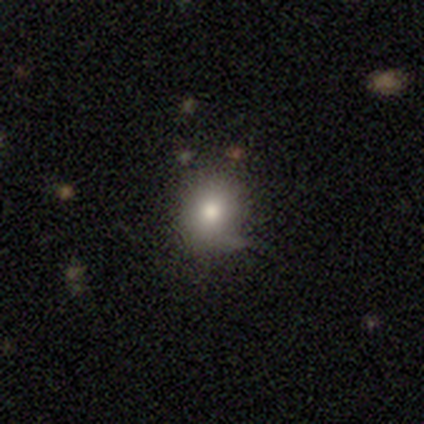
This appears to be a smooth galaxy with no disk features (84%) that is round (78%). Merging: none (80%).